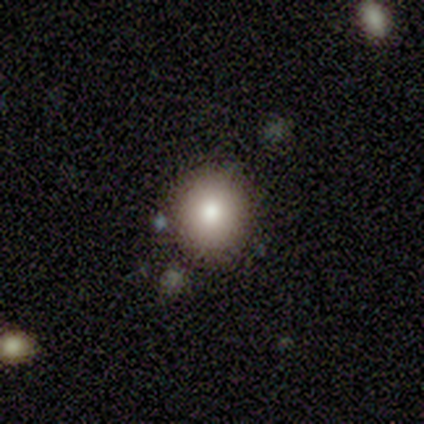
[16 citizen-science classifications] Smooth or featured?
  - smooth: 75% *
  - star or artifact: 19%
  - featured or disk: 6%
How rounded?
  - round: 75% *
  - in between: 25%
  - cigar-shaped: 0%
Merging?
  - none: 85% *
  - minor disturbance: 8%
  - major disturbance: 8%
  - merger: 0%